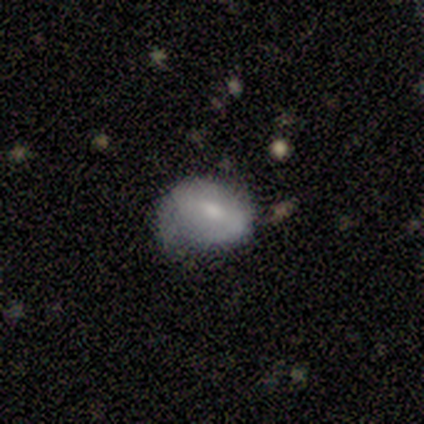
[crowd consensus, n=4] Q: Smooth or featured?
A: featured or disk (75%); runner-up: smooth (25%)
Q: Edge-on disk?
A: no (100%)
Q: Bar?
A: strong (67%); runner-up: no (33%)
Q: Spiral arms?
A: no (67%); runner-up: yes (33%)
Q: Bulge size?
A: moderate (100%)
Q: Merging?
A: minor disturbance (50%); runner-up: none (25%)